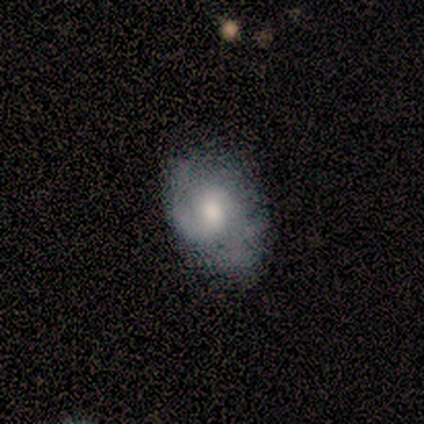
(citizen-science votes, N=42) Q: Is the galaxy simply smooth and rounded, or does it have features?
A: featured or disk — 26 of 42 (62%).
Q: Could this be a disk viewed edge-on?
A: no — 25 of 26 (96%).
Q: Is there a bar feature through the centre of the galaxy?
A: no — 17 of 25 (68%).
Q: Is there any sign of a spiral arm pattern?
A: yes — 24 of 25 (96%).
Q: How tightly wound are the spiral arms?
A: medium — 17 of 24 (71%).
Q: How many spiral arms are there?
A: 2 — 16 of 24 (67%).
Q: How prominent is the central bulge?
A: moderate — 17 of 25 (68%).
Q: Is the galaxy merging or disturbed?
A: none — 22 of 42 (52%).